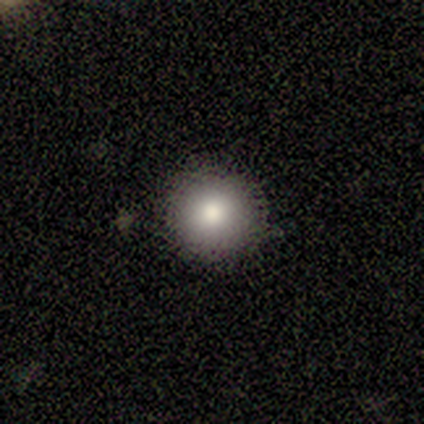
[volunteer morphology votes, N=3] smooth-or-featured: smooth: 100% | featured or disk: 0% | star or artifact: 0%
  how-rounded: round: 100% | in between: 0% | cigar-shaped: 0%
  merging: none: 100% | minor disturbance: 0% | major disturbance: 0% | merger: 0%